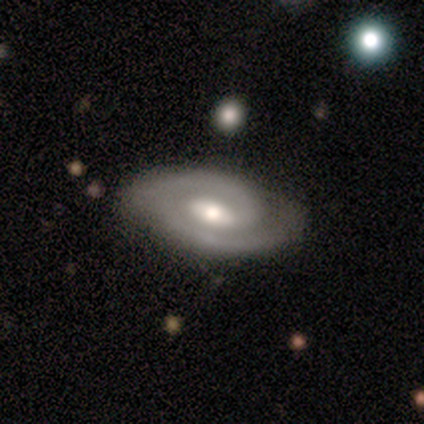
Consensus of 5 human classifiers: Smooth or featured: featured or disk — 100%
Edge-on disk: no — 100%
Bar: no — 60% (weak — 40%)
Spiral arms: yes — 100%
Spiral winding: tight — 80% (medium — 20%)
Spiral arm count: 2 — 80% (1 — 20%)
Bulge size: moderate — 80% (small — 20%)
Merging: none — 80% (minor disturbance — 20%)